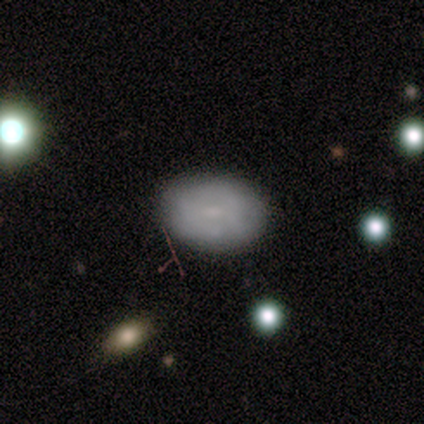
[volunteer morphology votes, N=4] Smooth or featured? 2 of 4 (50%, tied with featured or disk) said smooth. How rounded? 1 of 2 (50%, tied with in between) said round. Merging? 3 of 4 (75%) said none.